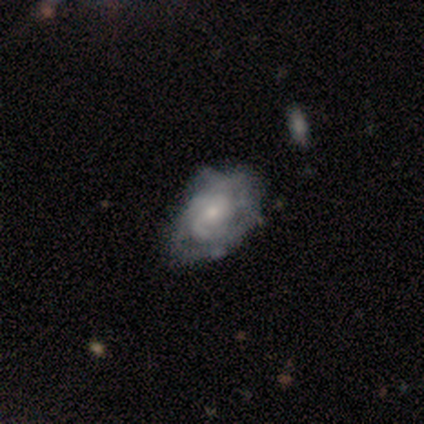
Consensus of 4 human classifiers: This is clearly a featured or disk galaxy (100%). It is clearly not viewed edge-on (100%). Bar: likely no (75%). Spiral arm pattern: likely yes (75%). Spiral arm count: likely can't tell (67%). Spiral winding: likely loose (67%). Central bulge: possibly small (50%). Merging: likely none (75%).